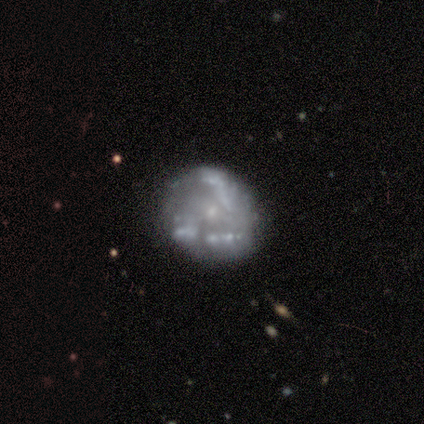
This is clearly a featured or disk galaxy (80%). It is clearly not viewed edge-on (100%). Bar: likely no (62%). Spiral arm pattern: likely no (75%). Central bulge: clearly small (88%). Merging: marginally none (44%).